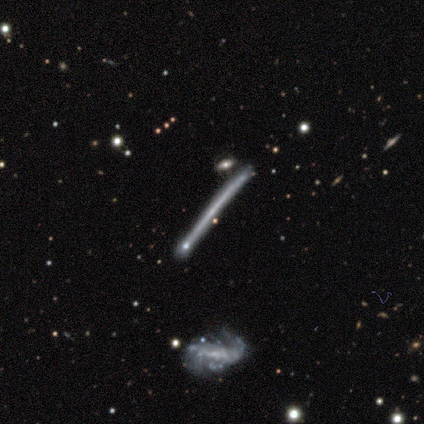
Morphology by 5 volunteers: type=featured or disk (80%); edge-on=yes (75%); edge-on bulge=none (100%); merging=none (75%).